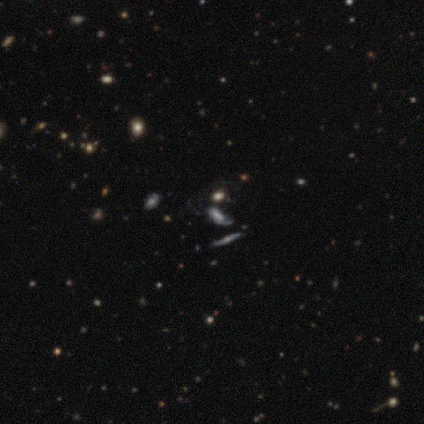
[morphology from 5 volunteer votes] smooth_or_featured: smooth (p=0.40) [tied with: featured or disk p=0.40]
how_rounded: in between (p=0.50) [tied with: cigar-shaped p=0.50]
merging: none (p=0.50) [alt: major disturbance p=0.25]